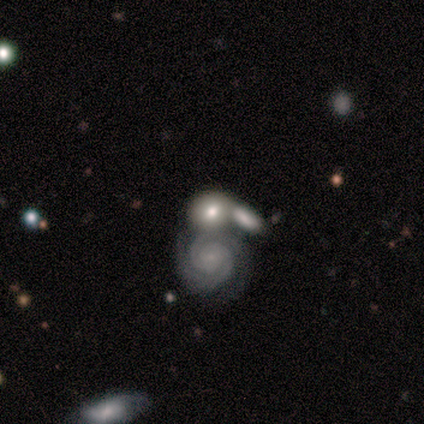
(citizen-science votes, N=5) smooth-or-featured: featured or disk: 80% | smooth: 20% | star or artifact: 0%
  disk-edge-on: no: 100% | yes: 0%
    bar: no: 100% | strong: 0% | weak: 0%
    has-spiral-arms: yes: 100% | no: 0%
      spiral-winding: tight: 75% | medium: 25% | loose: 0%
      spiral-arm-count: can't tell: 50% | 2: 25% | 3: 25% | 1: 0% | 4: 0% | more than 4: 0%
    bulge-size: small: 50% (tied) | none: 50% (tied) | dominant: 0% | large: 0% | moderate: 0%
  merging: merger: 80% | none: 20% | minor disturbance: 0% | major disturbance: 0%